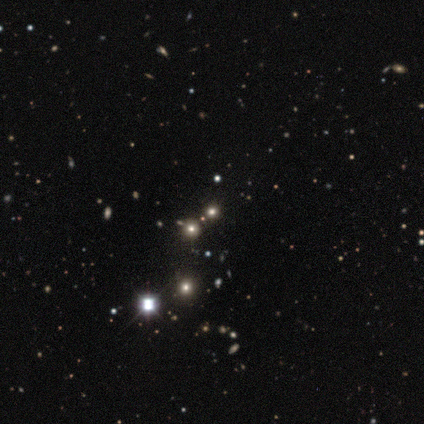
A star or artifact, not a galaxy (100%).

Vote fractions:
- Smooth or featured? star or artifact: 100% / smooth: 0% / featured or disk: 0%